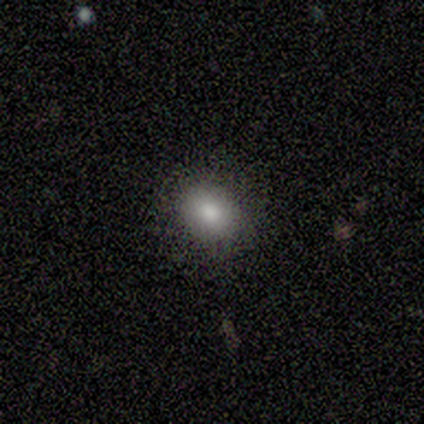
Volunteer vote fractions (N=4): smooth 75%, star or artifact 25%, featured or disk 0%. Down the decision tree: how rounded — in between (100%); merging — none (100%).